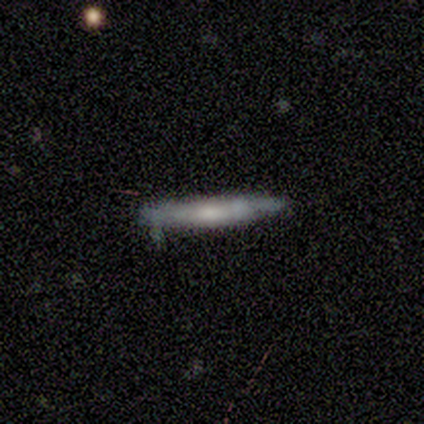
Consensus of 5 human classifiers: Smooth or featured? 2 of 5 (40%, tied with featured or disk) said smooth. How rounded? 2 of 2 (100%) said cigar-shaped. Merging? 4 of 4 (100%) said none.